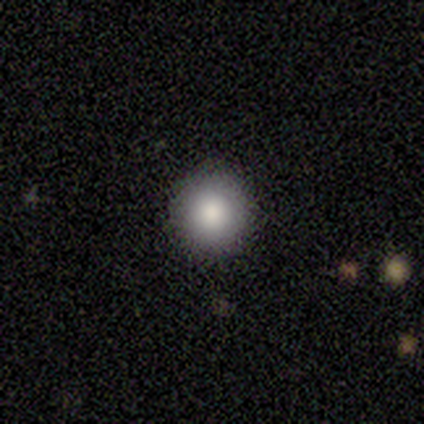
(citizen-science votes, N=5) Smooth or featured?
  - smooth: 100% *
  - featured or disk: 0%
  - star or artifact: 0%
How rounded?
  - round: 100% *
  - in between: 0%
  - cigar-shaped: 0%
Merging?
  - none: 80% *
  - major disturbance: 20%
  - minor disturbance: 0%
  - merger: 0%